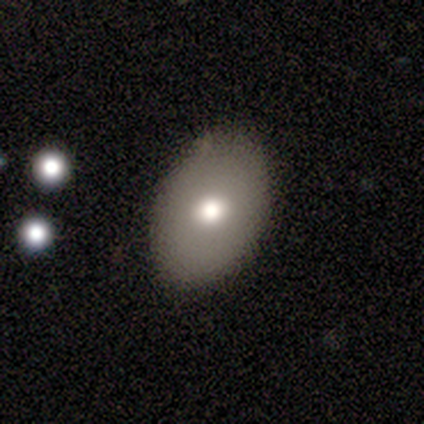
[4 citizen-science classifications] A smooth galaxy with no disk features (50%, tied with featured or disk) that is in between round and cigar-shaped (100%). Merging: none (100%).